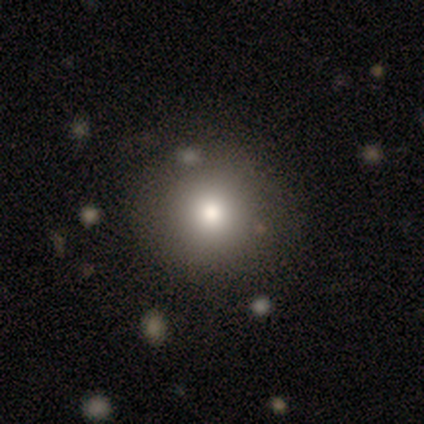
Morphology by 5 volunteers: Smooth or featured? smooth (80%)
How rounded? round (100%)
Merging? none (100%)